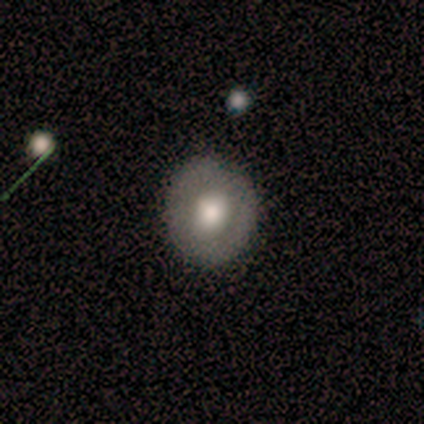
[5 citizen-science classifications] Overall: smooth (60%; featured or disk 40%). How rounded: in between (67%; round 33%). Merging: none (100%).